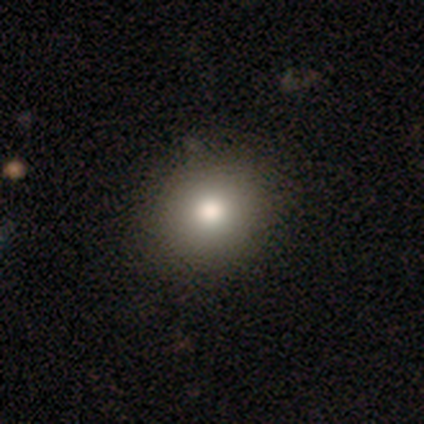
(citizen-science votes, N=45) Overall: smooth (82%). How rounded: round (70%). Merging: none (95%).